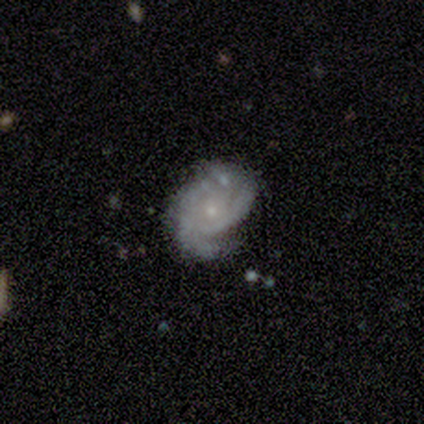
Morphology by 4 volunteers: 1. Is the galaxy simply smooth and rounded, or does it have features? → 50% featured or disk, 25% smooth, 25% star or artifact.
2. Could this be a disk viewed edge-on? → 100% no, 0% yes.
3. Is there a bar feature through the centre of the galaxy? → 100% no, 0% strong, 0% weak.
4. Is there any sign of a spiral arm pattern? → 100% yes, 0% no.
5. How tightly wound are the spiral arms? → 100% medium, 0% tight, 0% loose.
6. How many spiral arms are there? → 50% 2 (tied), 50% can't tell (tied), 0% 1, 0% 3, 0% 4, 0% more than 4.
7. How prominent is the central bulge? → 50% moderate (tied), 50% small (tied), 0% dominant, 0% large, 0% none.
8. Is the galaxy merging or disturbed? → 67% minor disturbance, 33% major disturbance, 0% none, 0% merger.